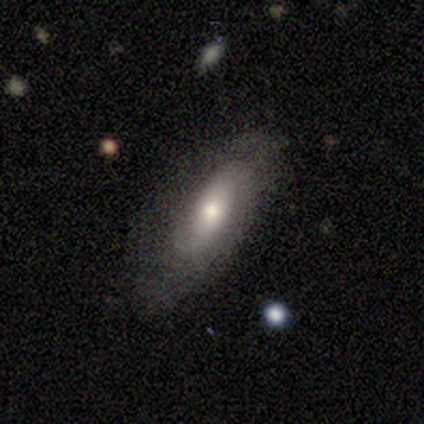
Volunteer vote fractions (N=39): smooth_or_featured: featured or disk (p=0.56) [alt: smooth p=0.41]
disk_edge_on: no (p=0.86) [alt: yes p=0.14]
bar: no (p=0.79) [alt: weak p=0.16]
has_spiral_arms: yes (p=0.63) [alt: no p=0.37]
spiral_winding: medium (p=0.42) [alt: tight p=0.33]
spiral_arm_count: 2 (p=0.67) [alt: 1 p=0.25]
bulge_size: moderate (p=0.74) [alt: small p=0.16]
merging: none (p=0.68) [alt: minor disturbance p=0.21]